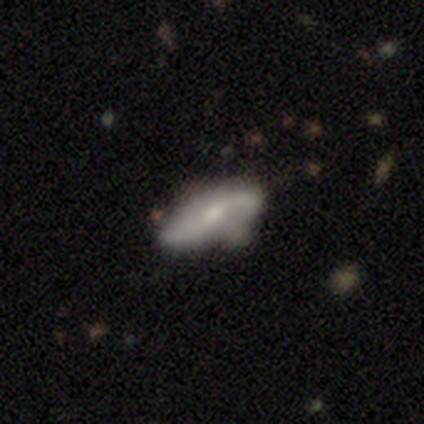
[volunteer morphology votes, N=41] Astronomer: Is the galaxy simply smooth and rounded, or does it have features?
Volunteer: featured or disk — 61% (runner-up: smooth, 39%).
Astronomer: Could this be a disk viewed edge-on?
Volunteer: no — 96%.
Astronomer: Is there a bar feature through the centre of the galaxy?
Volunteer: weak — 46% (runner-up: no, 38%).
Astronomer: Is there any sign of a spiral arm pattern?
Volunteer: yes — 96%.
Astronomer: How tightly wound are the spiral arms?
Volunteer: loose — 78%.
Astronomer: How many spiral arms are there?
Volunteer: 2 — 87%.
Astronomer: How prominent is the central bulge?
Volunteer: moderate — 67%.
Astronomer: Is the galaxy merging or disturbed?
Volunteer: none — 34% (runner-up: minor disturbance, 15%).